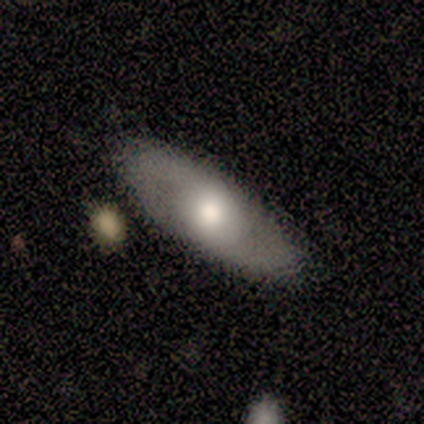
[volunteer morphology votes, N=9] Smooth or featured?
  - featured or disk: 78% *
  - smooth: 22%
  - star or artifact: 0%
Edge-on disk?
  - no: 71% *
  - yes: 29%
Bar?
  - no: 60% *
  - weak: 40%
  - strong: 0%
Spiral arms?
  - yes: 100% *
  - no: 0%
Spiral winding?
  - loose: 60% *
  - tight: 20%
  - medium: 20%
Spiral arm count?
  - 2: 60% *
  - can't tell: 40%
  - 1: 0%
  - 3: 0%
  - 4: 0%
  - more than 4: 0%
Bulge size?
  - moderate: 80% *
  - large: 20%
  - dominant: 0%
  - small: 0%
  - none: 0%
Merging?
  - none: 67% *
  - merger: 22%
  - major disturbance: 11%
  - minor disturbance: 0%